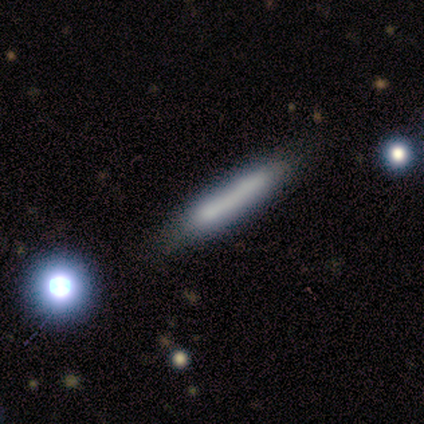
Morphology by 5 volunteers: smooth_or_featured: smooth (p=0.40) [tied with: featured or disk p=0.40]
how_rounded: in between (p=0.50) [tied with: cigar-shaped p=0.50]
merging: minor disturbance (p=0.50) [tied with: merger p=0.50]